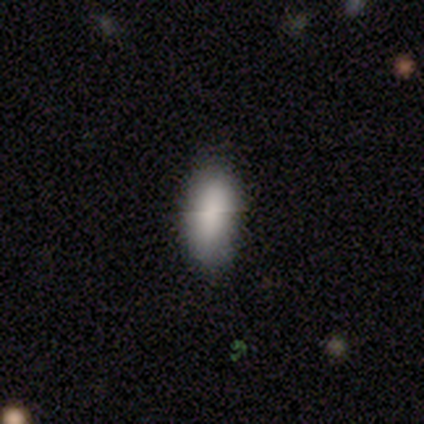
A smooth galaxy with no disk features (80%) that is in between round and cigar-shaped (100%). Merging: minor disturbance (60%).